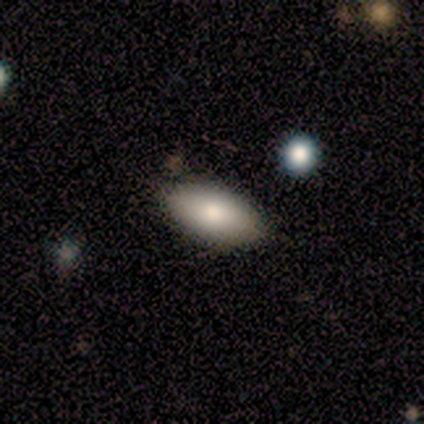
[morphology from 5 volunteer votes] This is clearly a smooth galaxy (80%). How rounded: clearly in between (100%). Merging: likely none (60%).